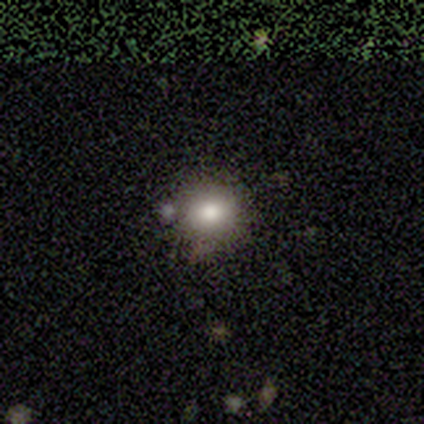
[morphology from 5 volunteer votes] This appears to be a smooth galaxy with no disk features (60%) that is round (100%). Merging: none (67%).